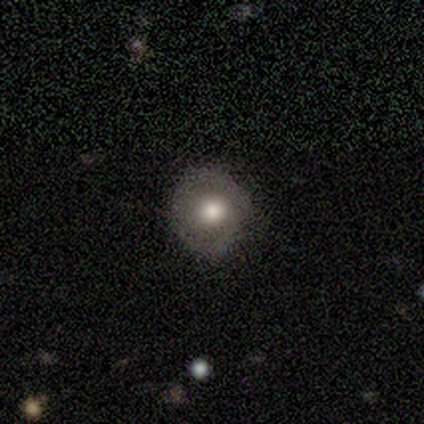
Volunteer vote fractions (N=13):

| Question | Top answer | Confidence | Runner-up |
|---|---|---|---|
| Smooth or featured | smooth | 54% | featured or disk (23%) |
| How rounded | round | 86% | in between (14%) |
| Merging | none | 70% | minor disturbance (20%) |